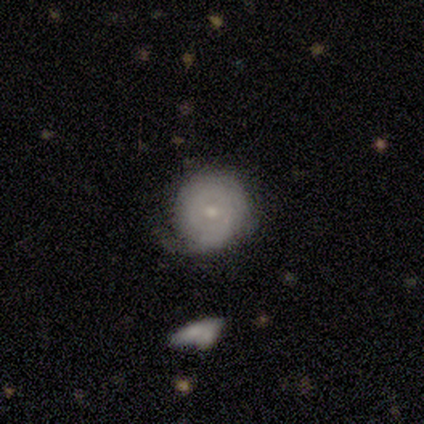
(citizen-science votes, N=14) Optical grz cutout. It shows a featured or disk galaxy (64%) with no bar (67%), tight (60%) spiral arms (56%) and a small central bulge (67%). Merging: minor disturbance (50%).